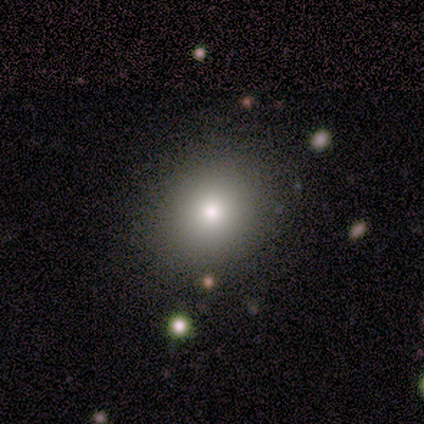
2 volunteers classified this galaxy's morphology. This is clearly a smooth galaxy (100%). How rounded: clearly round (100%). Merging: clearly none (100%).